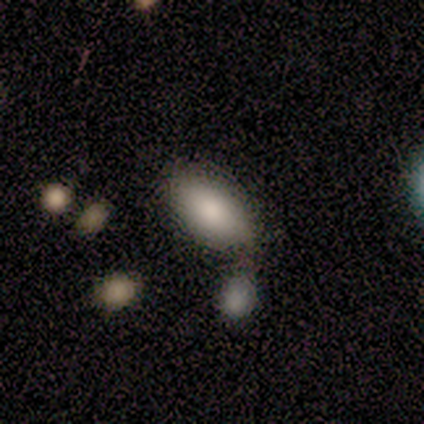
Overall: smooth (75%). How rounded: in between (100%). Merging: none (50%; minor disturbance 25%).